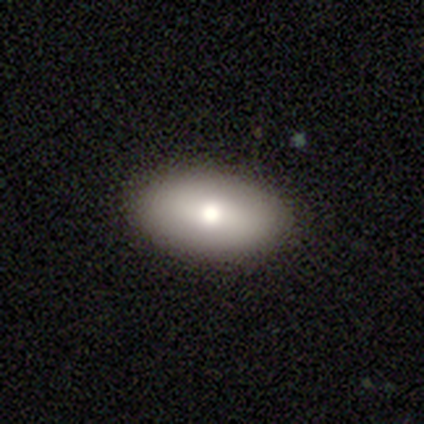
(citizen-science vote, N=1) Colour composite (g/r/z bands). It shows a smooth galaxy with no disk features (100%) that is in between round and cigar-shaped (100%). Merging: none (100%).